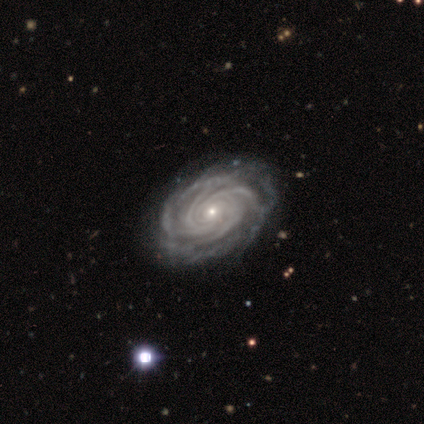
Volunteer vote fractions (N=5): featured or disk 80%, smooth 20%, star or artifact 0%. Down the decision tree: edge-on disk — no (100%); bar — no (100%); spiral arms — yes (100%); spiral arm count — 4 (75%); spiral winding — tight (100%); bulge size — small (75%); merging — none (60%).